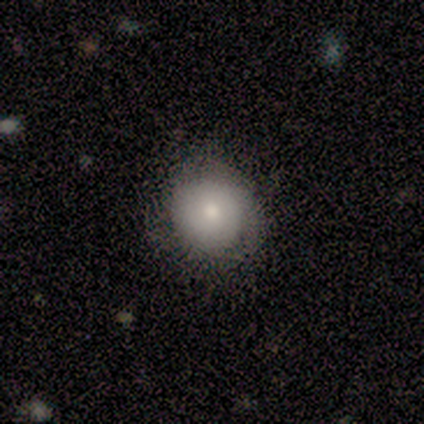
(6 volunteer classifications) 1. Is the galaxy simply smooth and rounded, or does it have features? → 83% smooth, 17% featured or disk, 0% star or artifact.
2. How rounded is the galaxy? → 100% round, 0% in between, 0% cigar-shaped.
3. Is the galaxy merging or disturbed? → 50% none (tied), 50% minor disturbance (tied), 0% major disturbance, 0% merger.